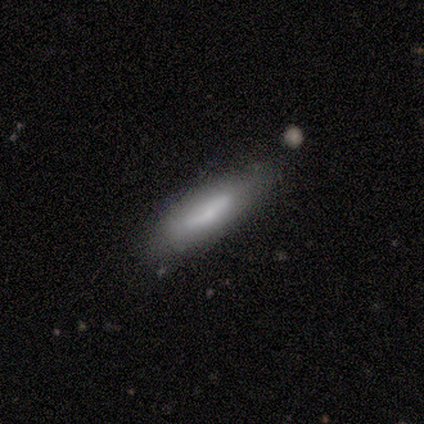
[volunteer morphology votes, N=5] Q: Smooth or featured?
A: featured or disk (60%); runner-up: smooth (40%)
Q: Edge-on disk?
A: yes (67%); runner-up: no (33%)
Q: Edge-on bulge?
A: none (100%)
Q: Merging?
A: none (80%); runner-up: major disturbance (20%)